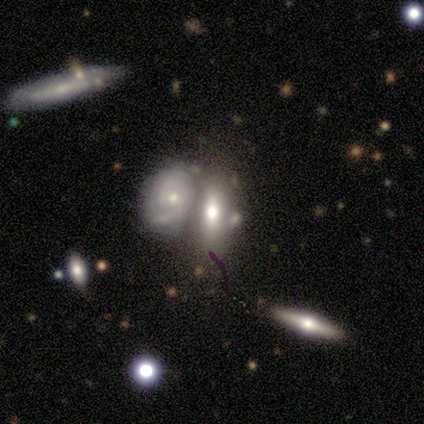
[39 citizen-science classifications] featured or disk 41%, smooth 38%, star or artifact 21%. Down the decision tree: edge-on disk — no (62%); bar — no (80%); spiral arms — no (60%); bulge size — moderate (70%); merging — merger (58%).